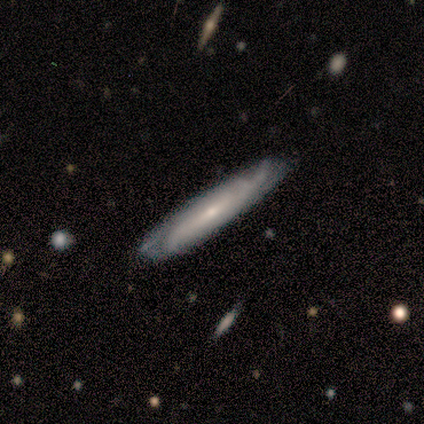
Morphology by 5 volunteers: smooth_or_featured: featured or disk (p=0.80) [alt: smooth p=0.20]
disk_edge_on: yes (p=0.75) [alt: no p=0.25]
edge_on_bulge: none (p=0.67) [alt: rounded p=0.33]
merging: none (p=1.00)